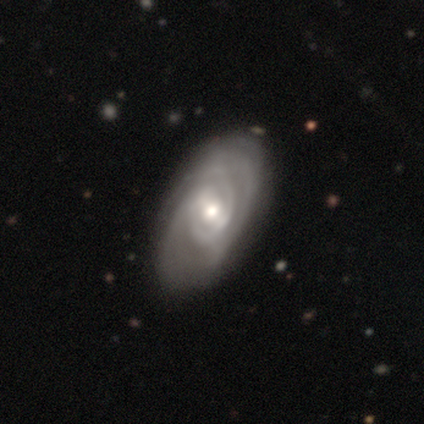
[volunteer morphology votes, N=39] smooth_or_featured: featured or disk (p=0.87) [alt: smooth p=0.13]
disk_edge_on: no (p=0.91) [alt: yes p=0.09]
bar: weak (p=0.39) [alt: no p=0.35]
has_spiral_arms: yes (p=0.90) [alt: no p=0.10]
spiral_winding: tight (p=0.79) [alt: medium p=0.18]
spiral_arm_count: can't tell (p=0.43) [alt: 2 p=0.21]
bulge_size: moderate (p=0.61) [alt: large p=0.19]
merging: none (p=0.41) [alt: minor disturbance p=0.21]